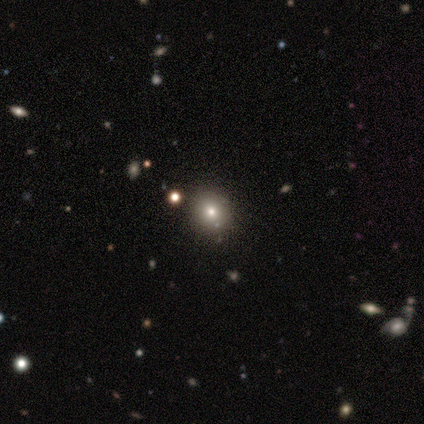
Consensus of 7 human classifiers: smooth_or_featured: smooth (p=0.57) [alt: star or artifact p=0.29]
how_rounded: round (p=1.00)
merging: none (p=0.80) [alt: merger p=0.20]